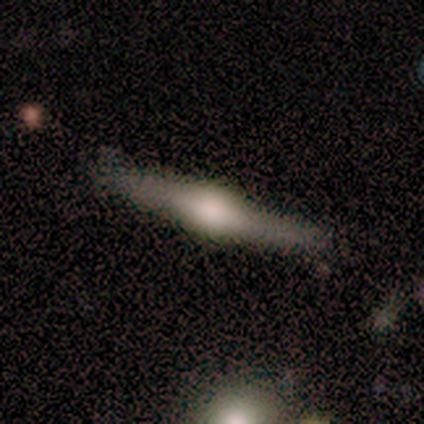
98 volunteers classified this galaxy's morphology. type=featured or disk (81%); edge-on=yes (95%); edge-on bulge=rounded (88%); merging=none (74%).